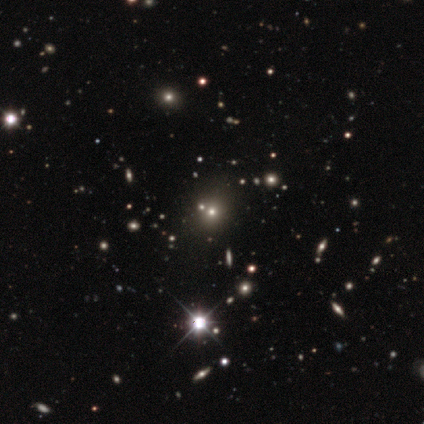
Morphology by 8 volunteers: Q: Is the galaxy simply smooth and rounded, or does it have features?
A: smooth — 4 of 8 (50%).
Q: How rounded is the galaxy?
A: round — 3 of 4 (75%).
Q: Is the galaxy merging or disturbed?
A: none — 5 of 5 (100%).